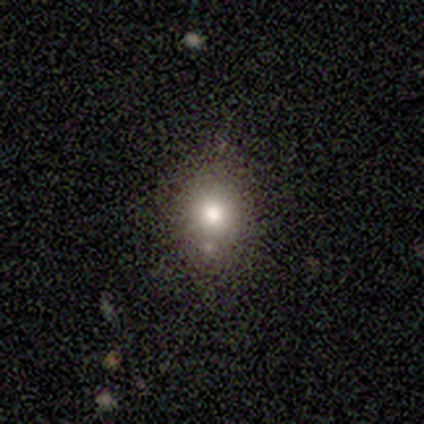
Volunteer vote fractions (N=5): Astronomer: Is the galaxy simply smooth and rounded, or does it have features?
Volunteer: smooth — 100%.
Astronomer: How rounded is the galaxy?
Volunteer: round — 60% (runner-up: in between, 40%).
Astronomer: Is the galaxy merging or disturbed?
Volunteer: none — 100%.